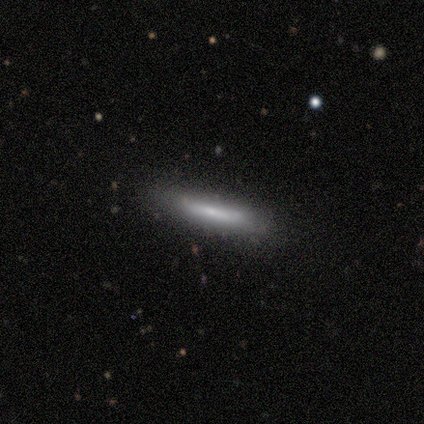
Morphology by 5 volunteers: smooth 60%, featured or disk 40%, star or artifact 0%. Down the decision tree: how rounded — cigar-shaped (67%); merging — none (100%).